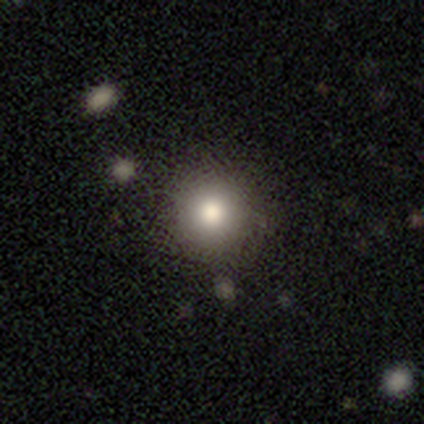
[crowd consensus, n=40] smooth-or-featured: smooth: 88% | featured or disk: 10% | star or artifact: 2%
  how-rounded: round: 94% | in between: 6% | cigar-shaped: 0%
  merging: none: 82% | minor disturbance: 10% | major disturbance: 5% | merger: 3%